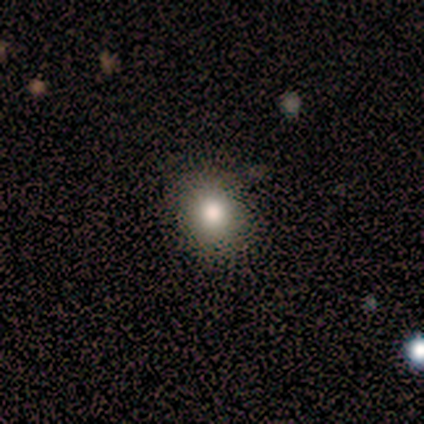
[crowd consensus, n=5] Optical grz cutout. It shows a smooth galaxy with no disk features (100%) that is round (80%). Merging: none (80%).